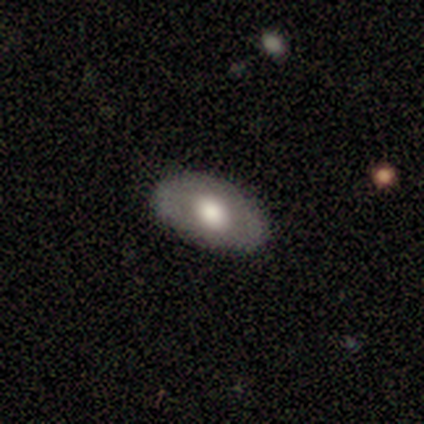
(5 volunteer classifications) smooth_or_featured: smooth (p=0.60) [alt: featured or disk p=0.40]
how_rounded: in between (p=1.00)
merging: none (p=1.00)